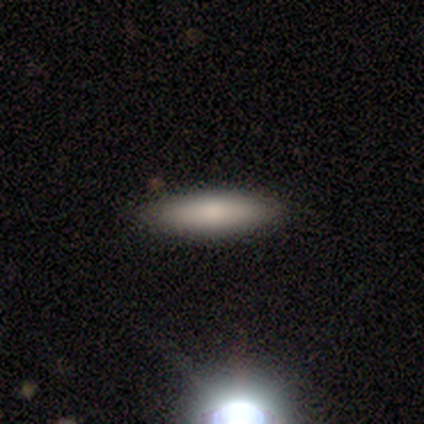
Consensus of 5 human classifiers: This appears to be a smooth galaxy with no disk features (100%) that is cigar-shaped (100%). Merging: none (100%).